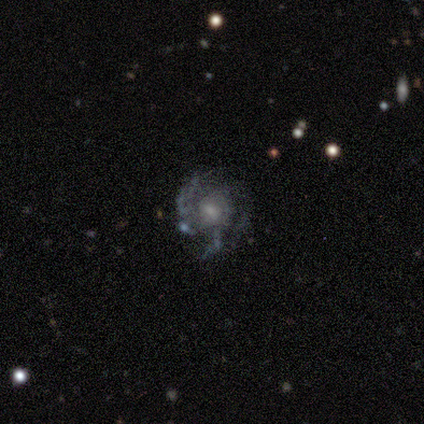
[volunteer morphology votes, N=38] This appears to be a featured or disk galaxy (87%) with no bar (73%), tight (44%) spiral arms (82%) and a small central bulge (42%). Merging: none (59%).